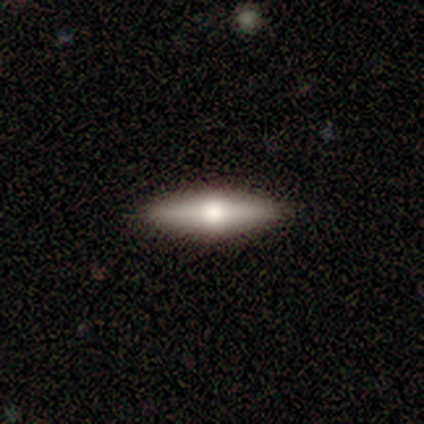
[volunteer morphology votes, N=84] type=featured or disk (48%); edge-on=yes (95%); edge-on bulge=rounded (95%); merging=none (92%).